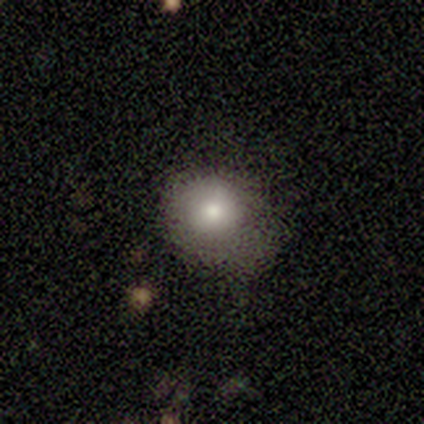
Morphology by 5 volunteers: smooth-or-featured: smooth: 80% | featured or disk: 20% | star or artifact: 0%
  how-rounded: round: 75% | in between: 25% | cigar-shaped: 0%
  merging: none: 60% | major disturbance: 20% | merger: 20% | minor disturbance: 0%